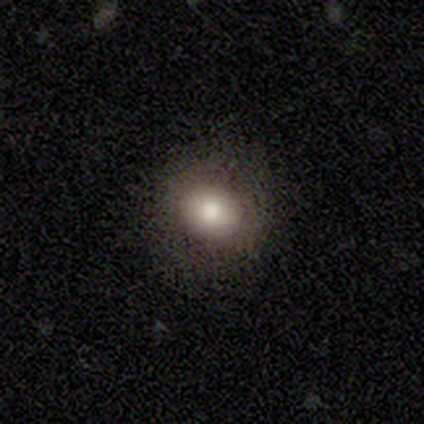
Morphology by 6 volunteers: Smooth or featured: smooth — 67% (featured or disk — 17%)
How rounded: round — 100%
Merging: none — 100%